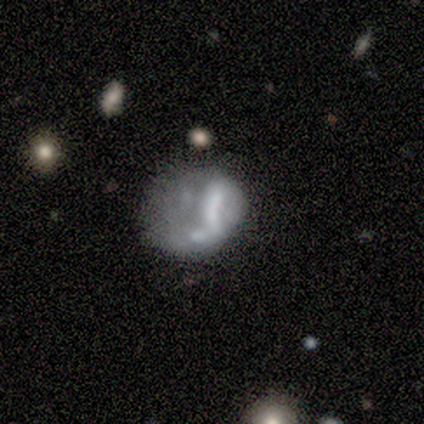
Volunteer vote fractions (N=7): smooth_or_featured: smooth (p=0.43) [tied with: featured or disk p=0.43]
how_rounded: round (p=1.00)
merging: none (p=0.33) [tied with: minor disturbance p=0.33, major disturbance p=0.33]